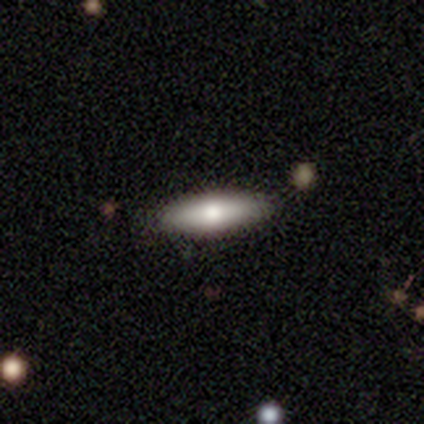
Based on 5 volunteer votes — smooth 80%, featured or disk 20%, star or artifact 0%. Down the decision tree: how rounded — in between (50%, tied with cigar-shaped); merging — none (100%).